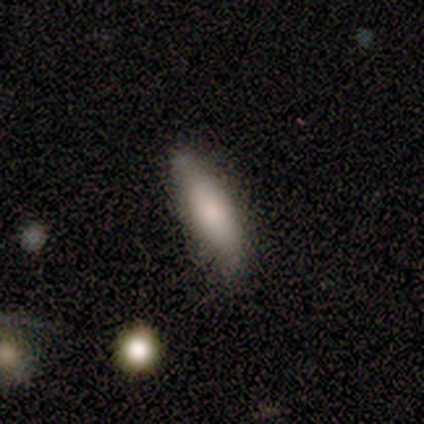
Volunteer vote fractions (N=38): smooth 87%, featured or disk 11%, star or artifact 3%. Down the decision tree: how rounded — cigar-shaped (58%); merging — none (65%).